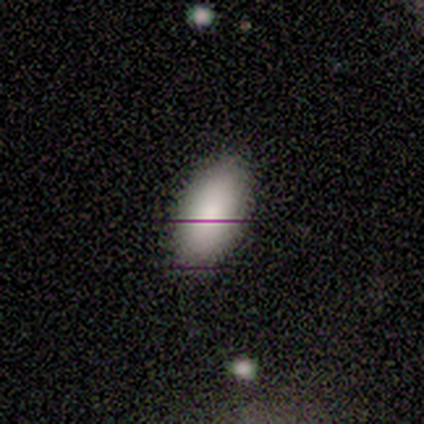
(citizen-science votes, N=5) This appears to be a smooth galaxy with no disk features (80%) that is in between round and cigar-shaped (100%). Merging: none (75%).